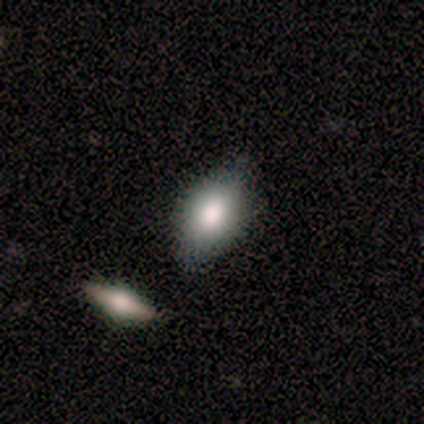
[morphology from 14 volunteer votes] Smooth or featured: smooth — 71% (featured or disk — 14%)
How rounded: in between — 100%
Merging: none — 92% (minor disturbance — 8%)